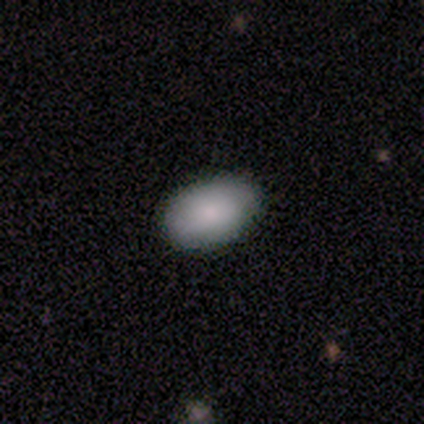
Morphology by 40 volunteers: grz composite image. It shows a smooth galaxy with no disk features (72%) that is in between round and cigar-shaped (100%). Merging: none (83%).